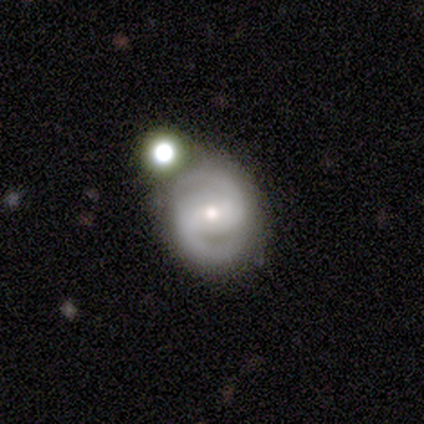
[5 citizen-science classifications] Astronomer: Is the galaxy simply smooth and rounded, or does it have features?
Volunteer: featured or disk — 60% (runner-up: smooth, 40%).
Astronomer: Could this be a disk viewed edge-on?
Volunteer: no — 100%.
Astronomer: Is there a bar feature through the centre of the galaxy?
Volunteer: weak — 67%.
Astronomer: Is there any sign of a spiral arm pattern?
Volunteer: yes — 100%.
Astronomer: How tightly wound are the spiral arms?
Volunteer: medium — 67%.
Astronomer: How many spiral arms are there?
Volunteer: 2 — 100%.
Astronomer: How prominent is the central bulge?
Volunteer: moderate — 67%.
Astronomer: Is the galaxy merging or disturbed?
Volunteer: none — 60%.